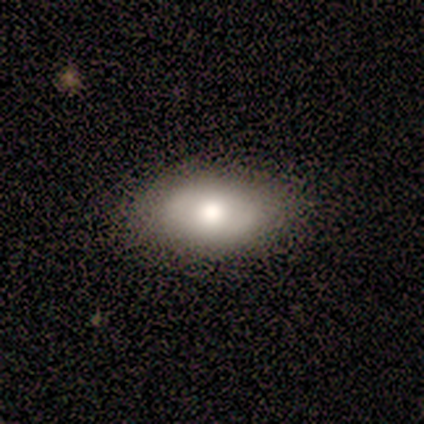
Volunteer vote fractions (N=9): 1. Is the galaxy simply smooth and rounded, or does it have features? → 78% smooth, 22% featured or disk, 0% star or artifact.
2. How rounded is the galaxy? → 86% in between, 14% round, 0% cigar-shaped.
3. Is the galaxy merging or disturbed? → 78% none, 22% minor disturbance, 0% major disturbance, 0% merger.